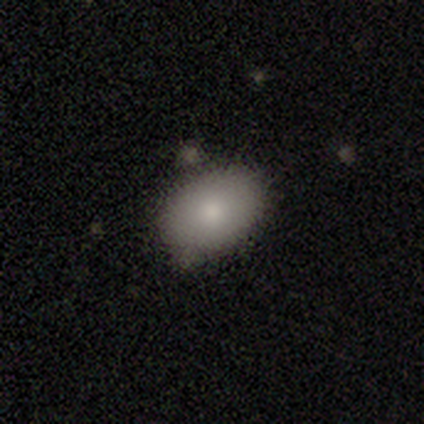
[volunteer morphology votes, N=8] Q: Smooth or featured?
A: smooth (100%)
Q: How rounded?
A: in between (88%); runner-up: round (12%)
Q: Merging?
A: none (88%); runner-up: minor disturbance (12%)